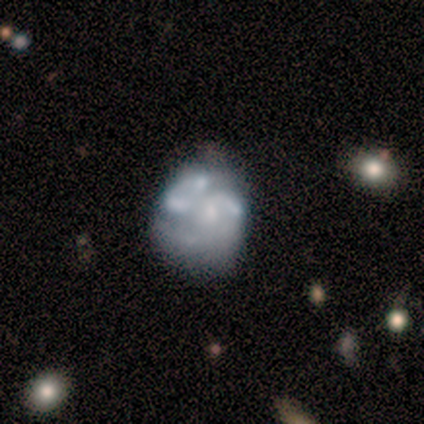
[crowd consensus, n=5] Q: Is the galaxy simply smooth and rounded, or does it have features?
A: featured or disk — 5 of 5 (100%).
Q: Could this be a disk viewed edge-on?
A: no — 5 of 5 (100%).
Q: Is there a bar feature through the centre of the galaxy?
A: no — 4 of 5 (80%).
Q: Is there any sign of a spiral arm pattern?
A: no — 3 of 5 (60%).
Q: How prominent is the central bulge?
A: none — 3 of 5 (60%).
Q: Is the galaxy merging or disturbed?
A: none — 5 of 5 (100%).